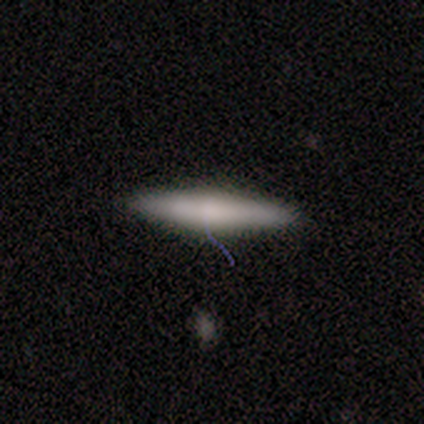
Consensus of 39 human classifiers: smooth_or_featured: smooth (p=0.64) [alt: featured or disk p=0.33]
how_rounded: cigar-shaped (p=0.92) [alt: in between p=0.08]
merging: none (p=0.89) [alt: minor disturbance p=0.11]